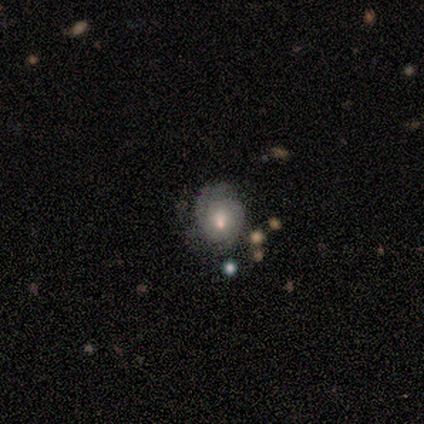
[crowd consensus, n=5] Morphology: type=featured or disk (60%); edge-on=no (100%); bar=no (100%); spiral arms=yes (100%); winding=tight (67%); arm count=2 (67%); bulge=moderate (67%); merging=none (40%, tied with major disturbance).